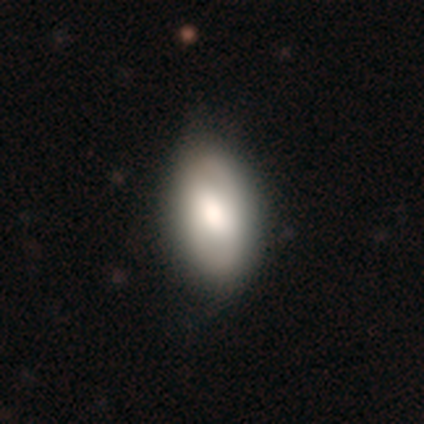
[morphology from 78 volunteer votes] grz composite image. It shows a smooth galaxy with no disk features (72%) that is in between round and cigar-shaped (96%). Merging: none (35%).